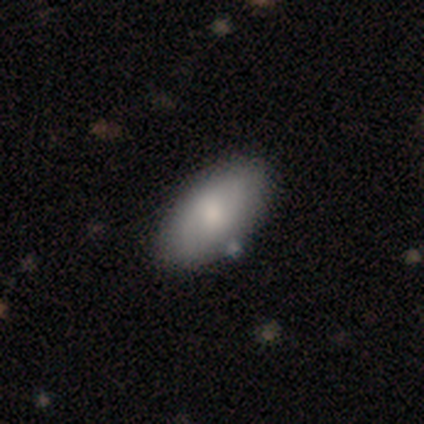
smooth-or-featured: smooth: 69% | featured or disk: 23% | star or artifact: 8%
  how-rounded: in between: 95% | cigar-shaped: 5% | round: 0%
  merging: none: 82% | minor disturbance: 13% | merger: 5% | major disturbance: 0%